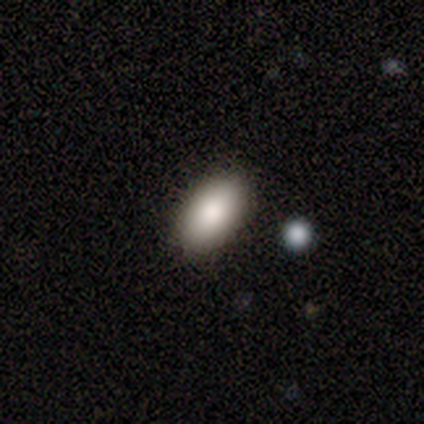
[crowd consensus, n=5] This is clearly a smooth galaxy (80%). How rounded: clearly in between (100%). Merging: clearly none (100%).